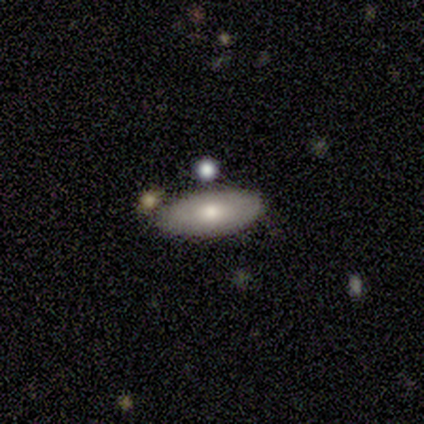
Smooth or featured?
  - smooth: 100% *
  - featured or disk: 0%
  - star or artifact: 0%
How rounded?
  - in between: 100% *
  - round: 0%
  - cigar-shaped: 0%
Merging?
  - none: 100% *
  - minor disturbance: 0%
  - major disturbance: 0%
  - merger: 0%